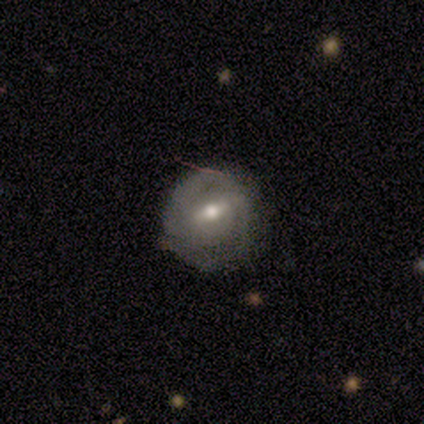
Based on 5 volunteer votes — featured or disk 80%, smooth 20%, star or artifact 0%. Down the decision tree: edge-on disk — no (100%); bar — strong (50%, tied with weak); spiral arms — yes (50%, tied with no); spiral arm count — 2 (100%); spiral winding — tight (100%); bulge size — moderate (100%); merging — none (60%).